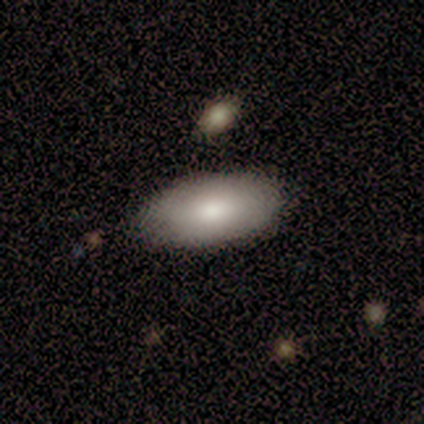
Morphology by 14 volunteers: Q: Smooth or featured?
A: smooth (86%); runner-up: featured or disk (14%)
Q: How rounded?
A: in between (100%)
Q: Merging?
A: none (86%); runner-up: minor disturbance (7%)